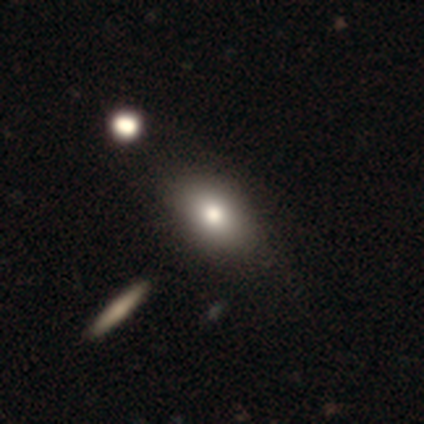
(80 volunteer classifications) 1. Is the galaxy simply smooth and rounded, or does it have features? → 82% smooth, 11% featured or disk, 6% star or artifact.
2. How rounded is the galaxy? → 89% in between, 8% round, 3% cigar-shaped.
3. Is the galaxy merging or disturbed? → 41% none, 7% merger, 5% minor disturbance, 0% major disturbance.